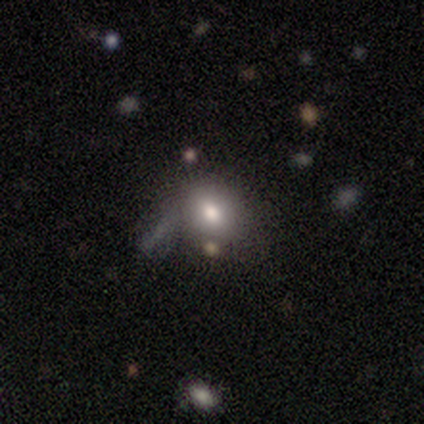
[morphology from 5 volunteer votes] A smooth galaxy with no disk features (80%) that is in between round and cigar-shaped (75%).

Vote fractions:
- Smooth or featured? smooth: 80% / featured or disk: 20% / star or artifact: 0%
- How rounded? in between: 75% / round: 25% / cigar-shaped: 0%
- Merging? none: 60% / minor disturbance: 20% / major disturbance: 20% / merger: 0%